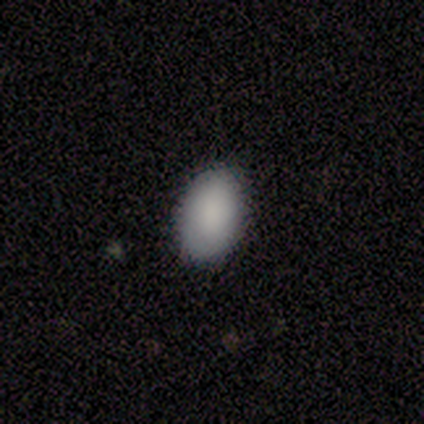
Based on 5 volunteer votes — A smooth galaxy with no disk features (80%) that is in between round and cigar-shaped (100%).

Vote fractions:
- Smooth or featured? smooth: 80% / featured or disk: 20% / star or artifact: 0%
- How rounded? in between: 100% / round: 0% / cigar-shaped: 0%
- Merging? none: 100% / minor disturbance: 0% / major disturbance: 0% / merger: 0%